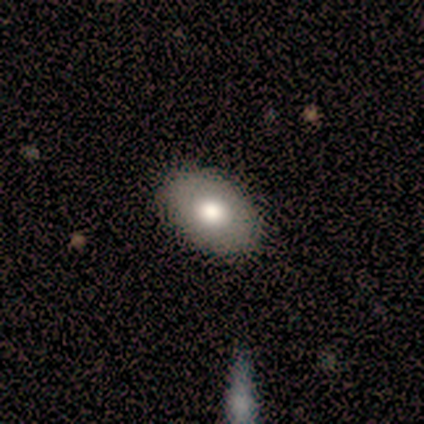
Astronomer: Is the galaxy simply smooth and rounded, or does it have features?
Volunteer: smooth — 100%.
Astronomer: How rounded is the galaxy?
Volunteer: in between — 100%.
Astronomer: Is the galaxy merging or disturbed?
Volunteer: none — 100%.